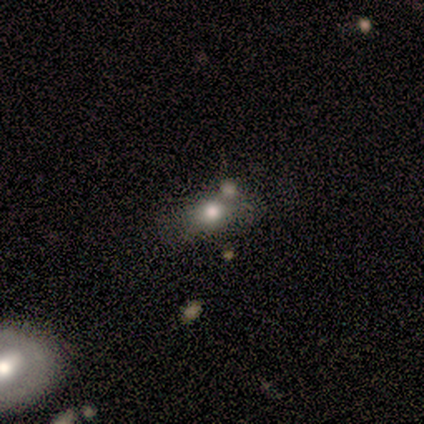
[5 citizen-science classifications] Smooth or featured: smooth — 100%
How rounded: in between — 60% (round — 40%)
Merging: merger — 60% (minor disturbance — 40%)